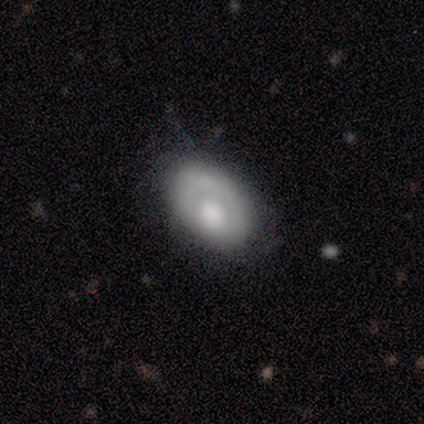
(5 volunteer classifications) Morphology: type=smooth (60%); roundness=in between (100%); merging=none (40%, tied with minor disturbance).